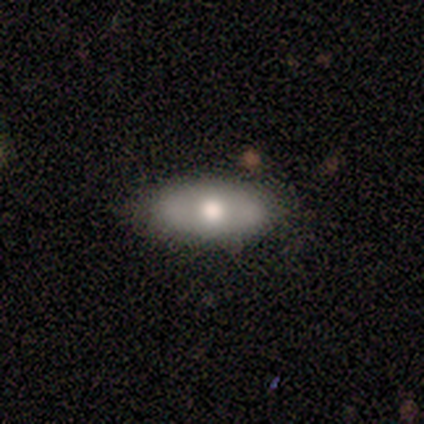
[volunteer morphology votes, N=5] Overall: featured or disk (60%; smooth 40%). Edge-on disk: yes (67%; no 33%). Edge-on bulge: rounded (100%). Merging: none (60%; minor disturbance 20%).